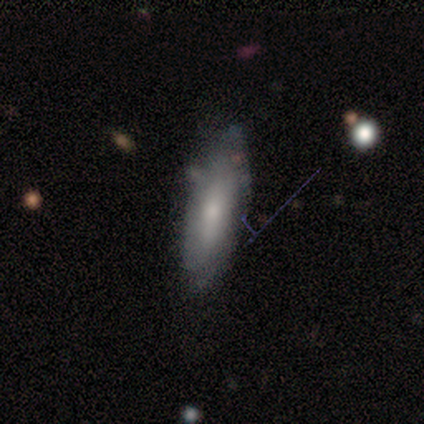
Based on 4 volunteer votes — Q: Smooth or featured?
A: smooth (50%); tied with: featured or disk (50%)
Q: How rounded?
A: in between (50%); tied with: cigar-shaped (50%)
Q: Merging?
A: minor disturbance (75%); runner-up: none (25%)